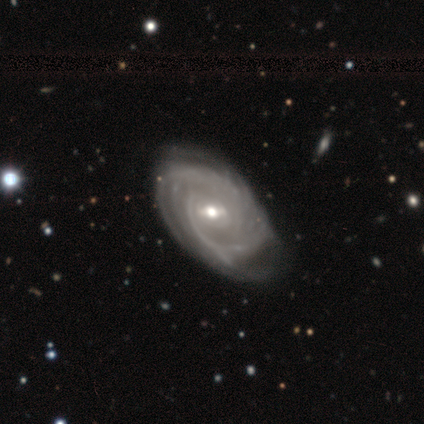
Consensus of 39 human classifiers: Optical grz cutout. It shows a featured or disk galaxy (92%) with a weak bar (56%), 4 (29%) tight (71%) spiral arms (94%) and a moderate central bulge (53%). Merging: none (68%).